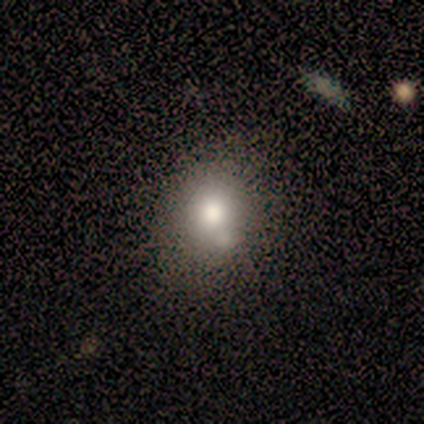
Smooth or featured?
  - smooth: 80% *
  - star or artifact: 20%
  - featured or disk: 0%
How rounded?
  - round: 50% * (tied)
  - in between: 50% * (tied)
  - cigar-shaped: 0%
Merging?
  - none: 75% *
  - merger: 25%
  - minor disturbance: 0%
  - major disturbance: 0%